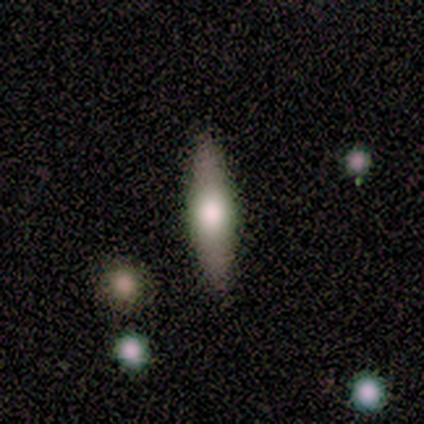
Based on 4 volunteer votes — A featured or disk galaxy (75%) viewed edge-on (100%) with a rounded central bulge (100%).

Vote fractions:
- Smooth or featured? featured or disk: 75% / smooth: 25% / star or artifact: 0%
- Edge-on disk? yes: 100% / no: 0%
- Edge-on bulge? rounded: 100% / boxy: 0% / none: 0%
- Merging? none: 100% / minor disturbance: 0% / major disturbance: 0% / merger: 0%